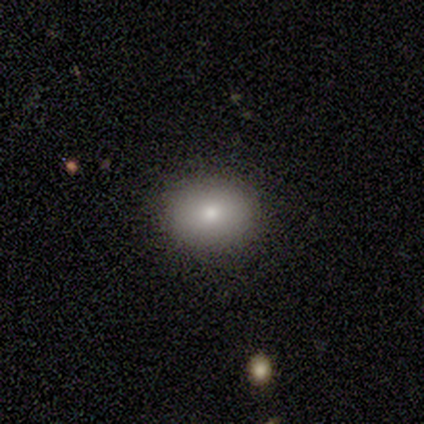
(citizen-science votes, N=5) This is clearly a smooth galaxy (80%). How rounded: possibly round (50%, tied with in between). Merging: clearly none (100%).